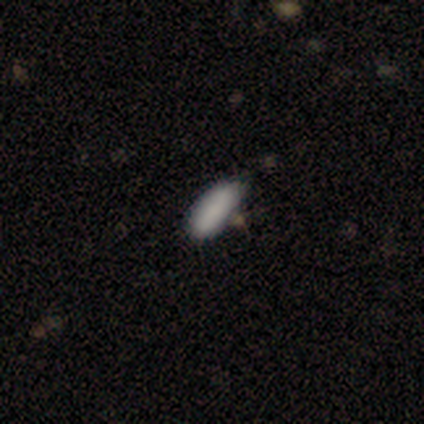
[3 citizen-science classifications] Q: Smooth or featured?
A: smooth (100%)
Q: How rounded?
A: in between (67%); runner-up: cigar-shaped (33%)
Q: Merging?
A: none (67%); runner-up: minor disturbance (33%)